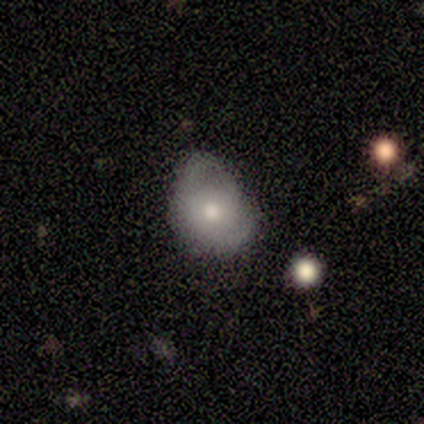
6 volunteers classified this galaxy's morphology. Smooth or featured? 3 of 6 (50%, tied with featured or disk) said smooth. How rounded? 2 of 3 (67%) said in between. Merging? 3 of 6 (50%) said minor disturbance.